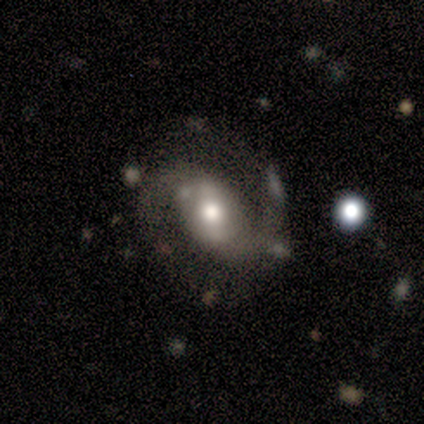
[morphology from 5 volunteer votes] Smooth or featured: featured or disk — 60% (smooth — 40%)
Edge-on disk: no — 100%
Bar: no — 100%
Spiral arms: yes — 100%
Spiral winding: loose — 67% (medium — 33%)
Spiral arm count: 2 — 100%
Bulge size: moderate — 100%
Merging: none — 60% (major disturbance — 40%)